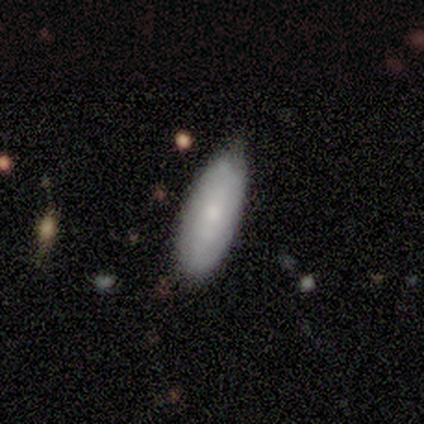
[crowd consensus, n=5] Volunteers were most divided on "how rounded" (2-way tie): in between: 50%, cigar-shaped: 50%, round: 0%. More confident: merging — none (100%); smooth or featured — smooth (80%).